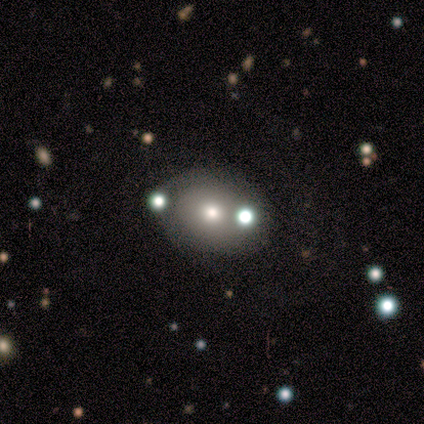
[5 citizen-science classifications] smooth-or-featured: smooth: 60% | star or artifact: 40% | featured or disk: 0%
  how-rounded: round: 67% | in between: 33% | cigar-shaped: 0%
  merging: merger: 67% | none: 33% | minor disturbance: 0% | major disturbance: 0%